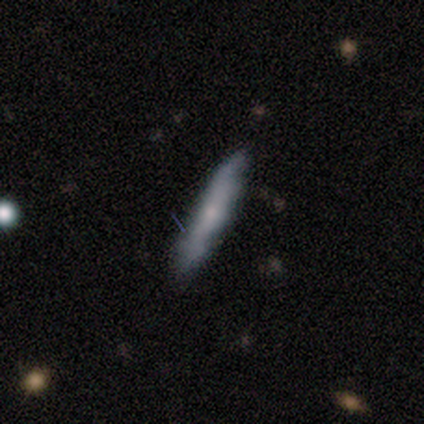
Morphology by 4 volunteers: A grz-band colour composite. It shows a smooth galaxy with no disk features (75%) that is cigar-shaped (100%). Merging: none (75%).